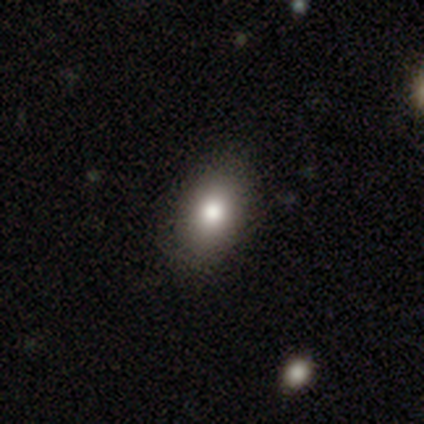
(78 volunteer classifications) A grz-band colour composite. It shows a smooth galaxy with no disk features (81%) that is in between round and cigar-shaped (86%). Merging: none (39%).